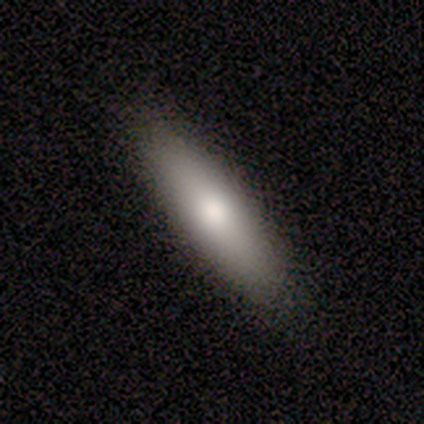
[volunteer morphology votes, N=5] A smooth galaxy with no disk features (60%) that is cigar-shaped (67%). Merging: none (100%).